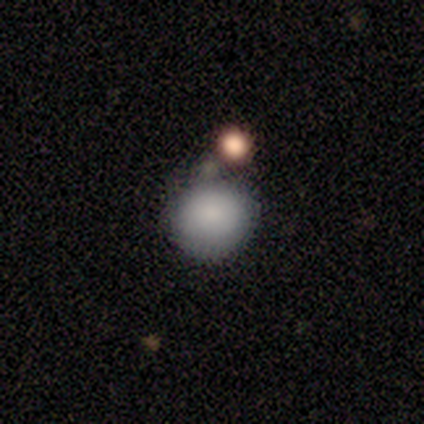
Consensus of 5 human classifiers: This appears to be a smooth galaxy with no disk features (40%, tied with star or artifact) that is round (100%). Merging: none (67%).